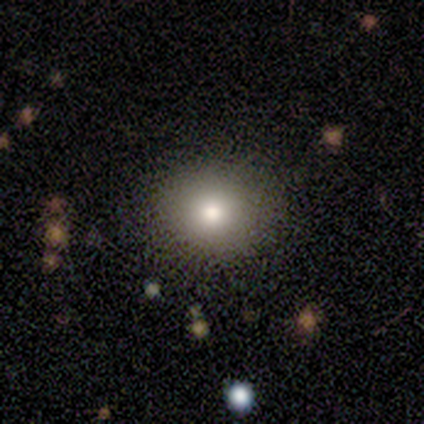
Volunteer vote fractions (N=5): Q: Smooth or featured?
A: smooth (100%)
Q: How rounded?
A: round (80%); runner-up: in between (20%)
Q: Merging?
A: none (80%); runner-up: minor disturbance (20%)